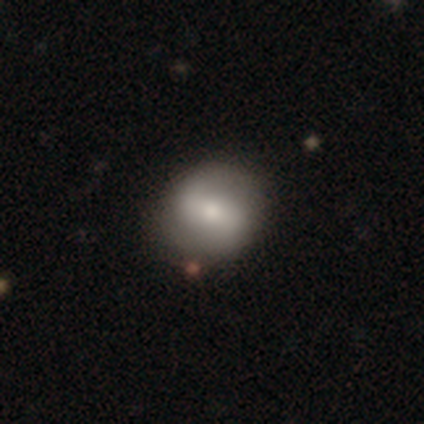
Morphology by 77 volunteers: A smooth galaxy with no disk features (49%) that is round (84%).

Vote fractions:
- Smooth or featured? smooth: 49% / featured or disk: 48% / star or artifact: 3%
- How rounded? round: 84% / in between: 16% / cigar-shaped: 0%
- Merging? none: 41% / minor disturbance: 8% / merger: 8% / major disturbance: 0%